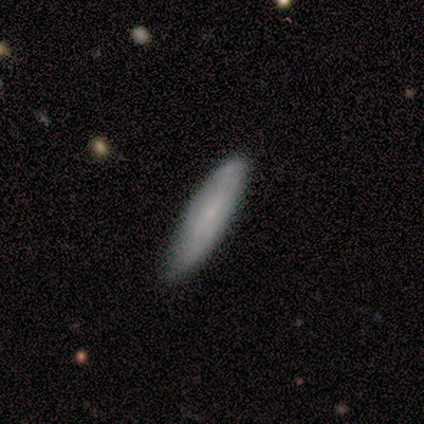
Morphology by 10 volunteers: A smooth galaxy with no disk features (80%) that is cigar-shaped (75%).

Vote fractions:
- Smooth or featured? smooth: 80% / featured or disk: 20% / star or artifact: 0%
- How rounded? cigar-shaped: 75% / in between: 25% / round: 0%
- Merging? none: 90% / minor disturbance: 10% / major disturbance: 0% / merger: 0%